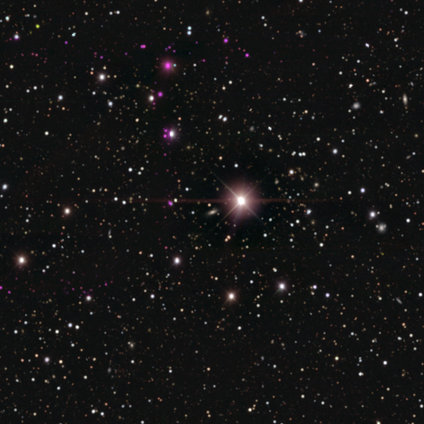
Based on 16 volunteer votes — Overall: star or artifact (88%).